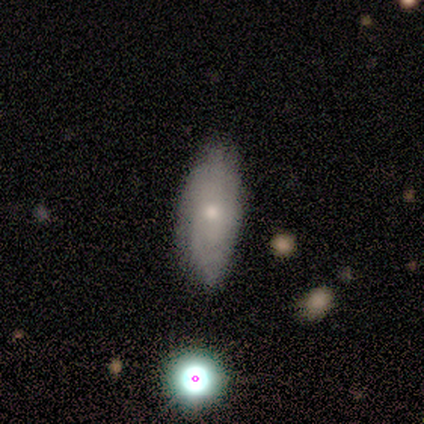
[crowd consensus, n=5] This is likely a smooth galaxy (60%). How rounded: clearly in between (100%). Merging: clearly none (80%).